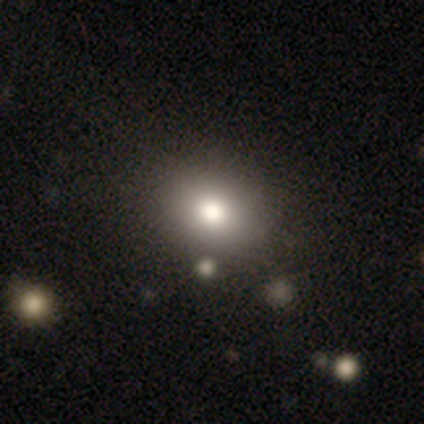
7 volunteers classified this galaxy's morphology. smooth_or_featured: smooth (p=0.86) [alt: star or artifact p=0.14]
how_rounded: round (p=0.50) [tied with: in between p=0.50]
merging: none (p=1.00)